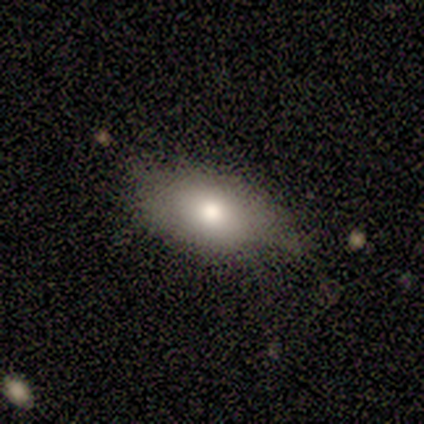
A smooth galaxy with no disk features (60%) that is in between round and cigar-shaped (100%). Merging: minor disturbance (60%).